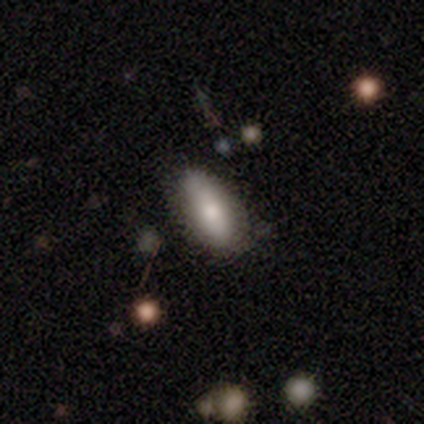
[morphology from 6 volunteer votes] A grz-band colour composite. It shows a smooth galaxy with no disk features (83%) that is in between round and cigar-shaped (100%). Merging: none (100%).